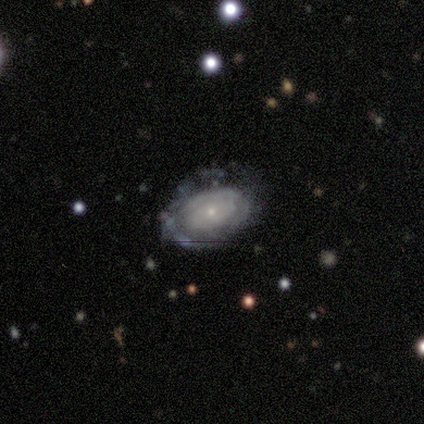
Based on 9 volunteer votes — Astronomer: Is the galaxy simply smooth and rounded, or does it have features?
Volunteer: featured or disk — 89%.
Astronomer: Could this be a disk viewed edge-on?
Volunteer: no — 100%.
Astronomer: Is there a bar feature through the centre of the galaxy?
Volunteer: no — 100%.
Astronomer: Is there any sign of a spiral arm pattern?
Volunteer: yes — 62%.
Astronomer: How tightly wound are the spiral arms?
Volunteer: tight — 80%.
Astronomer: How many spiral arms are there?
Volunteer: can't tell — 60%.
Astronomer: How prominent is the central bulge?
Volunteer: small — 100%.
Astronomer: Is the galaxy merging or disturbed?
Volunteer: none — 44%, tied with minor disturbance at 44%.